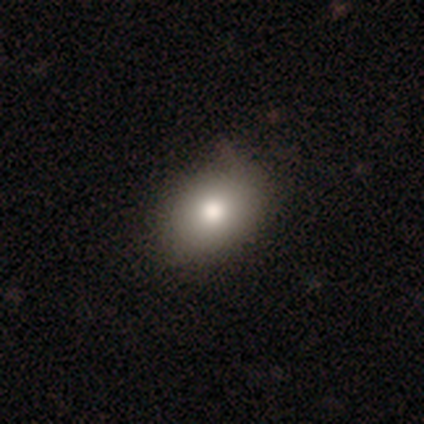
smooth-or-featured: smooth: 80% | featured or disk: 12% | star or artifact: 8%
  how-rounded: in between: 88% | round: 12% | cigar-shaped: 0%
  merging: none: 68% | minor disturbance: 30% | major disturbance: 3% | merger: 0%